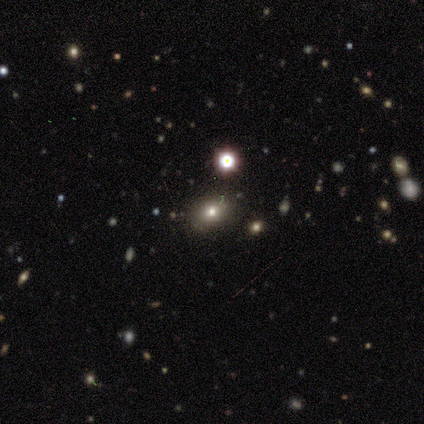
Morphology: type=smooth (80%); roundness=in between (75%); merging=none (100%).